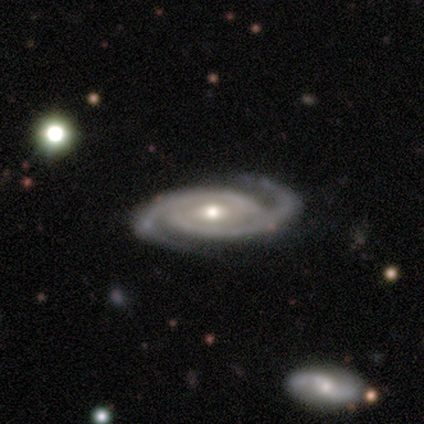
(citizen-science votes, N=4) Smooth or featured? featured or disk (100%)
Edge-on disk? no (100%)
Bar? strong (50%, tied with no)
Spiral arms? yes (100%)
Spiral winding? tight (50%)
Spiral arm count? 2 (100%)
Bulge size? moderate (50%, tied with small)
Merging? none (100%)